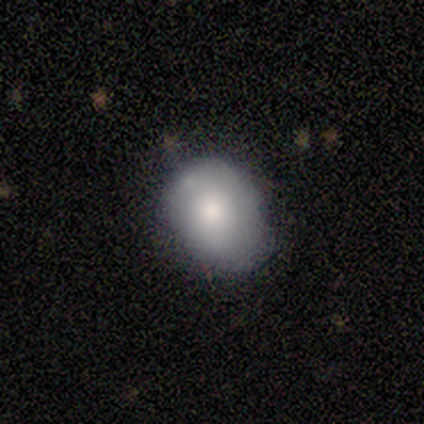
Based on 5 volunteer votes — Morphology: type=smooth (100%); roundness=in between (60%); merging=none (80%).